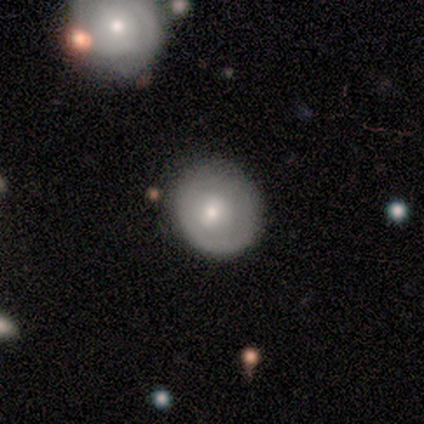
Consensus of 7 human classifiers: Morphology: type=smooth (57%); roundness=round (100%); merging=none (71%).